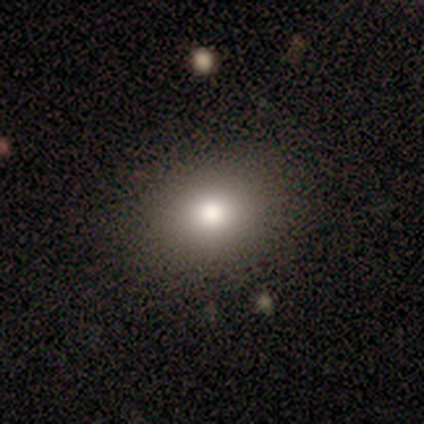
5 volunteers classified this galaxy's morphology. smooth-or-featured: smooth: 80% | featured or disk: 20% | star or artifact: 0%
  how-rounded: round: 75% | in between: 25% | cigar-shaped: 0%
  merging: none: 80% | minor disturbance: 20% | major disturbance: 0% | merger: 0%